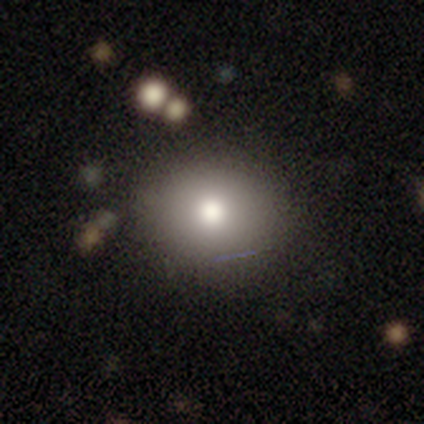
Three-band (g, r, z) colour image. It shows a smooth galaxy with no disk features (70%) that is round (71%). Merging: none (88%).